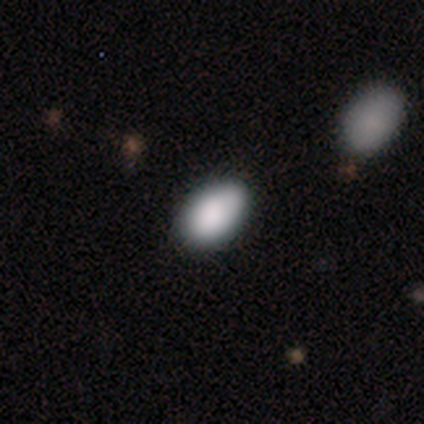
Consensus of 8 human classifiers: This appears to be a smooth galaxy with no disk features (62%) that is in between round and cigar-shaped (100%). Merging: none (80%).